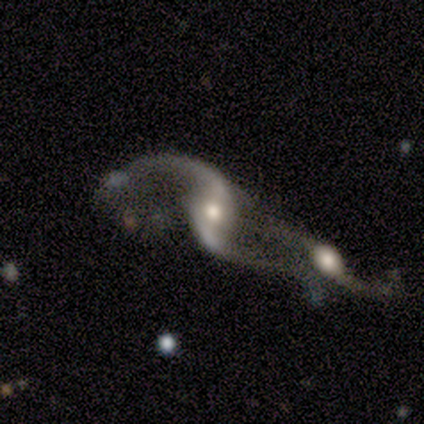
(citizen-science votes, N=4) Q: Smooth or featured?
A: featured or disk (100%)
Q: Edge-on disk?
A: no (100%)
Q: Bar?
A: weak (75%); runner-up: no (25%)
Q: Spiral arms?
A: yes (100%)
Q: Spiral winding?
A: loose (100%)
Q: Spiral arm count?
A: 2 (100%)
Q: Bulge size?
A: moderate (75%); runner-up: small (25%)
Q: Merging?
A: merger (75%); runner-up: major disturbance (25%)